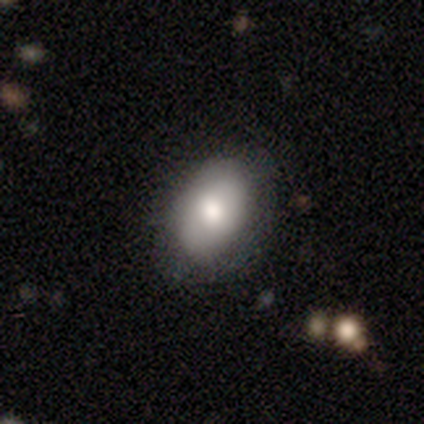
Smooth or featured? smooth (80%)
How rounded? in between (100%)
Merging? none (100%)